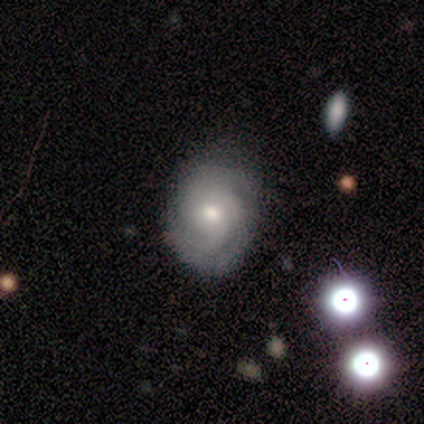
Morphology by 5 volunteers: This appears to be a featured or disk galaxy (80%) with a weak bar (50%, tied with no), tight (75%) spiral arms (100%) and a moderate central bulge (50%, tied with small). Merging: none (80%).